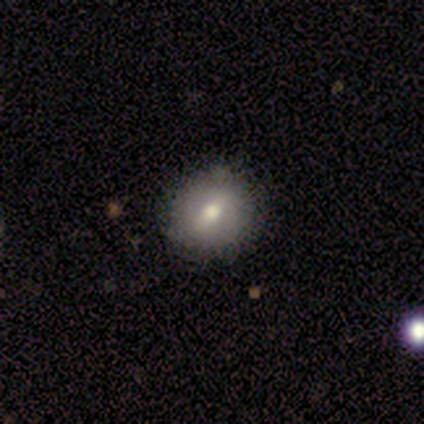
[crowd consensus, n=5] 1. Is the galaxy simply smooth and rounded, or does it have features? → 60% featured or disk, 40% smooth, 0% star or artifact.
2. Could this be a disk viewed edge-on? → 100% no, 0% yes.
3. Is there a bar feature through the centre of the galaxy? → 67% no, 33% weak, 0% strong.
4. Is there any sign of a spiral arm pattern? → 100% no, 0% yes.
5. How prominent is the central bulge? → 100% moderate, 0% dominant, 0% large, 0% small, 0% none.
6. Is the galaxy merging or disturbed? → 60% none, 40% minor disturbance, 0% major disturbance, 0% merger.